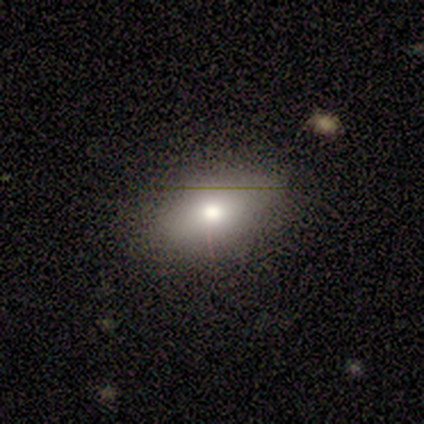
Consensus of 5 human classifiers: smooth 80%, star or artifact 20%, featured or disk 0%. Down the decision tree: how rounded — round (50%, tied with in between); merging — none (100%).